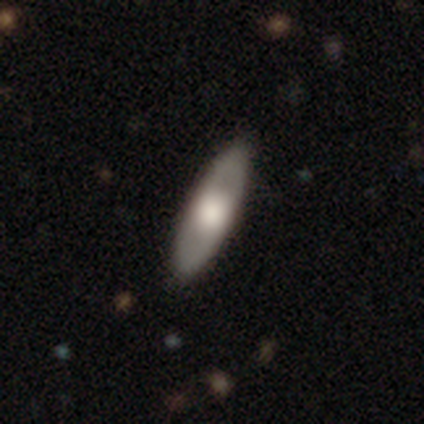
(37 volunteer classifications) Morphology: type=smooth (54%); roundness=cigar-shaped (55%); merging=none (74%).